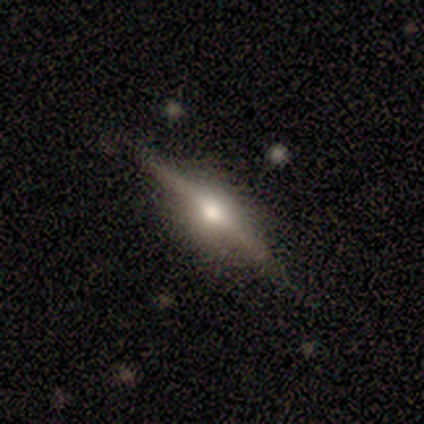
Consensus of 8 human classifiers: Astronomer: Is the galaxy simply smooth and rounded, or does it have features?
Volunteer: featured or disk — 62%.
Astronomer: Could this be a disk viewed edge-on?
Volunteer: yes — 100%.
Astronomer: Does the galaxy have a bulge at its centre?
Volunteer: rounded — 80%.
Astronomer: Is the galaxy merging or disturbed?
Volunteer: none — 88%.